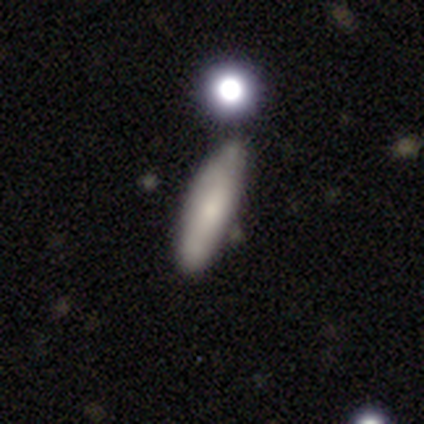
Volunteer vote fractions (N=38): smooth 68%, featured or disk 21%, star or artifact 11%. Down the decision tree: how rounded — cigar-shaped (69%); merging — none (62%).